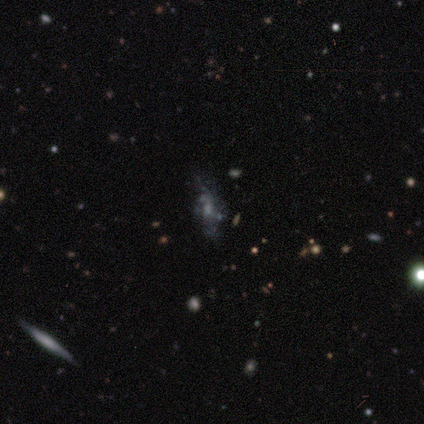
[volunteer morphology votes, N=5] Smooth or featured?
  - featured or disk: 80% *
  - smooth: 20%
  - star or artifact: 0%
Edge-on disk?
  - no: 75% *
  - yes: 25%
Bar?
  - no: 67% *
  - weak: 33%
  - strong: 0%
Spiral arms?
  - no: 67% *
  - yes: 33%
Bulge size?
  - none: 67% *
  - small: 33%
  - dominant: 0%
  - large: 0%
  - moderate: 0%
Merging?
  - none: 60% *
  - merger: 40%
  - minor disturbance: 0%
  - major disturbance: 0%